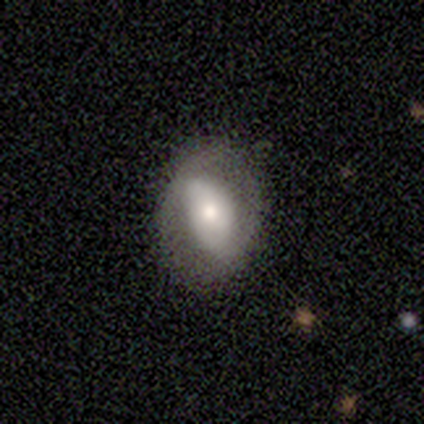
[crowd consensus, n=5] Overall: smooth (60%; featured or disk 40%). How rounded: in between (67%; round 33%). Merging: none (60%; minor disturbance 40%).